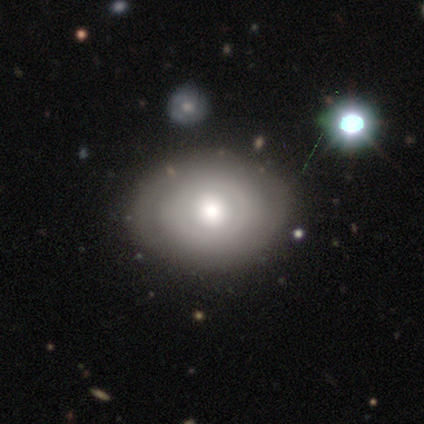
Smooth or featured: smooth — 63% (featured or disk — 19%)
How rounded: in between — 68% (round — 32%)
Merging: none — 67% (minor disturbance — 17%)